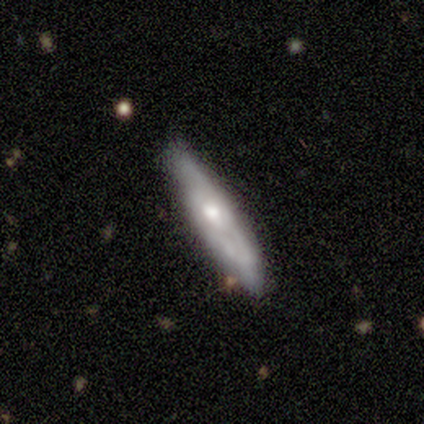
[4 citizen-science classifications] smooth-or-featured: smooth: 50% (tied) | featured or disk: 50% (tied) | star or artifact: 0%
  how-rounded: in between: 50% (tied) | cigar-shaped: 50% (tied) | round: 0%
  merging: minor disturbance: 50% | none: 25% | major disturbance: 25% | merger: 0%